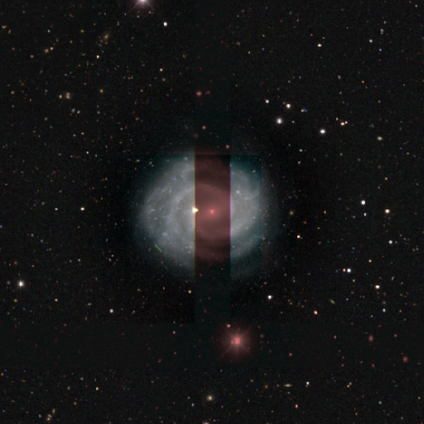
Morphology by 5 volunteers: Volunteers were most divided on "bar": no: 50%, strong: 25%, weak: 25%. More confident: edge-on disk — no (100%); spiral winding — tight (100%); bulge size — small (100%); smooth or featured — featured or disk (80%); spiral arms — yes (75%); merging — none (75%); spiral arm count — 2 (67%).